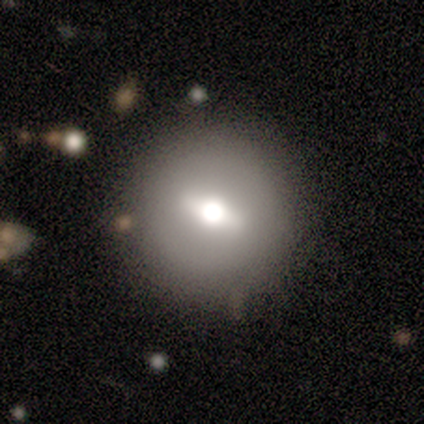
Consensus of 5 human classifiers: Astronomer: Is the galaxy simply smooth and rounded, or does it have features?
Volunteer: featured or disk — 80%.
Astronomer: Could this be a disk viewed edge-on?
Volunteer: yes — 75%.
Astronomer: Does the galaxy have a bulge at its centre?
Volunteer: rounded — 100%.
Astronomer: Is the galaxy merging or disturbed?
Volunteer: none — 100%.